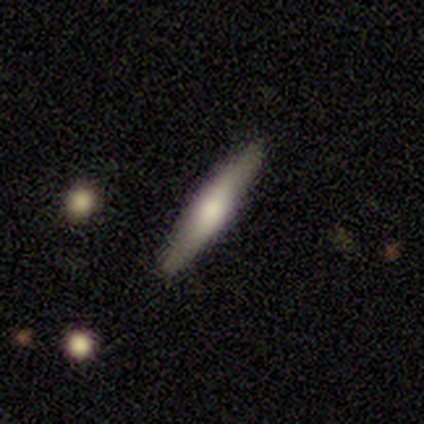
Smooth or featured: smooth — 71% (featured or disk — 25%)
How rounded: cigar-shaped — 90% (in between — 10%)
Merging: none — 89% (minor disturbance — 7%)